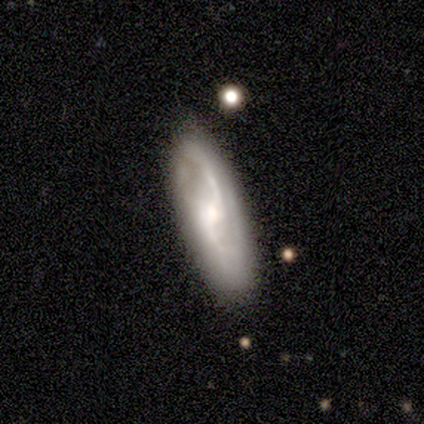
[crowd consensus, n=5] Morphology: type=featured or disk (80%); edge-on=no (75%); bar=strong (33%, tied with weak and no); spiral arms=yes (67%); winding=loose (100%); arm count=2 (100%); bulge=moderate (100%); merging=none (100%).